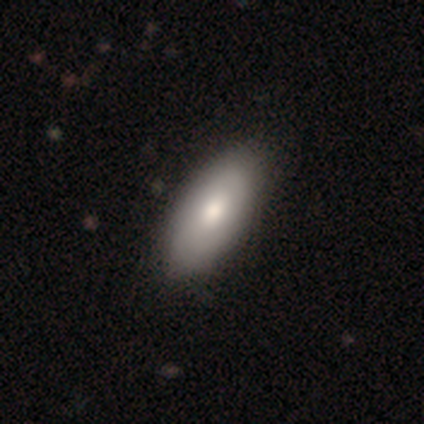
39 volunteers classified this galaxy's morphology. smooth 87%, featured or disk 13%, star or artifact 0%. Down the decision tree: how rounded — in between (91%); merging — none (51%).